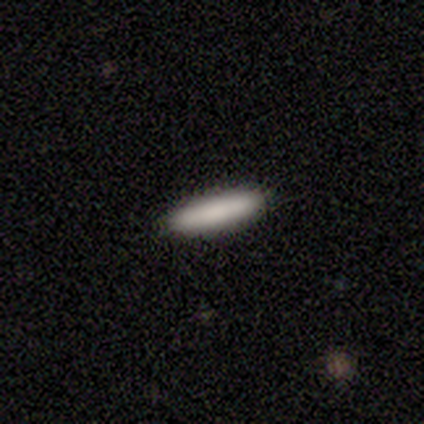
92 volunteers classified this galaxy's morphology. Smooth or featured? 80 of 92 (87%) said smooth. How rounded? 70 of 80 (88%) said cigar-shaped. Merging? 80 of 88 (91%) said none.